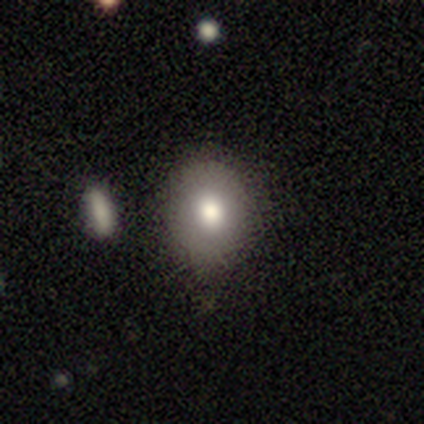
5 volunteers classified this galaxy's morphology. Smooth or featured? 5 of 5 (100%) said smooth. How rounded? 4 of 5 (80%) said in between. Merging? 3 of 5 (60%) said none.